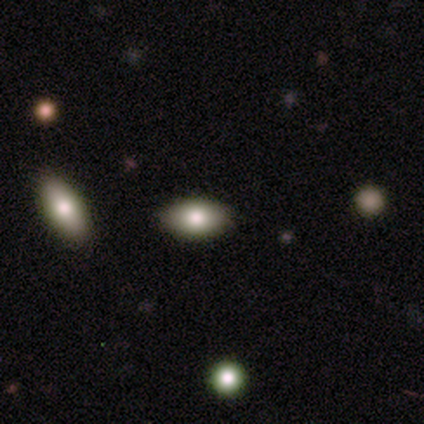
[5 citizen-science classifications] Q: Smooth or featured?
A: smooth (60%); runner-up: featured or disk (20%)
Q: How rounded?
A: in between (100%)
Q: Merging?
A: none (75%); runner-up: minor disturbance (25%)